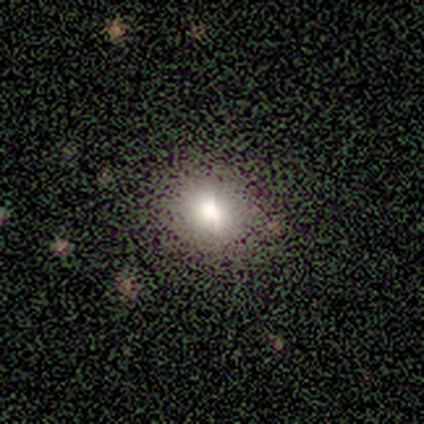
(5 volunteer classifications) Q: Smooth or featured?
A: smooth (60%); runner-up: featured or disk (20%)
Q: How rounded?
A: in between (67%); runner-up: round (33%)
Q: Merging?
A: none (100%)